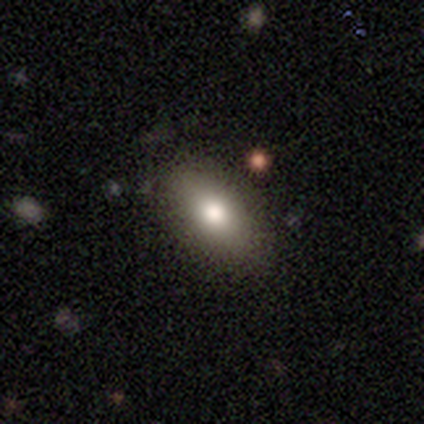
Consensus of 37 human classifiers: Smooth or featured: smooth — 86% (featured or disk — 8%)
How rounded: in between — 84% (cigar-shaped — 9%)
Merging: none — 86% (minor disturbance — 9%)